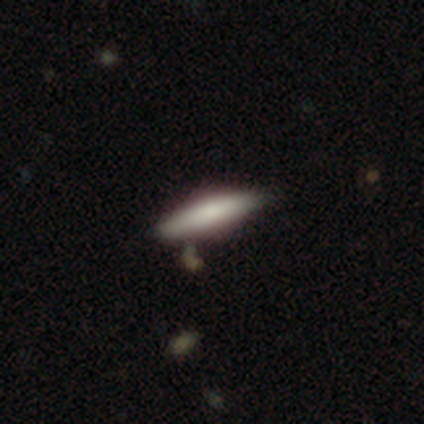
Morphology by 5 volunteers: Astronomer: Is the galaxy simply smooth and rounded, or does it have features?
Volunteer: featured or disk — 60% (runner-up: smooth, 40%).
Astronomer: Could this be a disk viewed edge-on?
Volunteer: yes — 100%.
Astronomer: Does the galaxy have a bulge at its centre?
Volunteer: boxy — 33%, tied with none and rounded at 33%.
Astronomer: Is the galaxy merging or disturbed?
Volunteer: none — 60%.